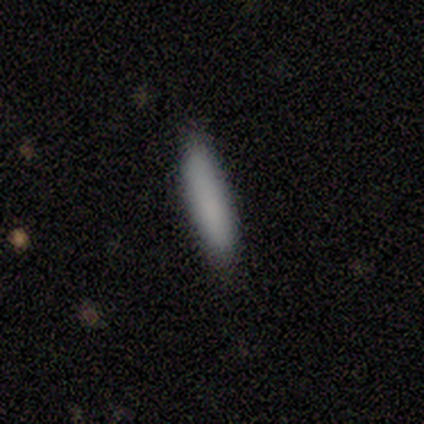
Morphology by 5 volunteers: Smooth or featured? smooth (100%)
How rounded? cigar-shaped (100%)
Merging? none (100%)